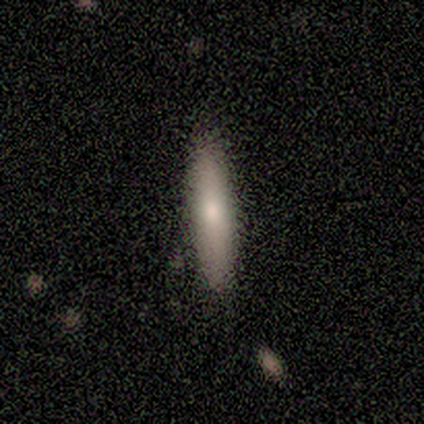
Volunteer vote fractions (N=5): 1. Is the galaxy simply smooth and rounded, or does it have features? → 80% smooth, 20% featured or disk, 0% star or artifact.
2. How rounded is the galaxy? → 100% cigar-shaped, 0% round, 0% in between.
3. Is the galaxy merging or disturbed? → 100% none, 0% minor disturbance, 0% major disturbance, 0% merger.